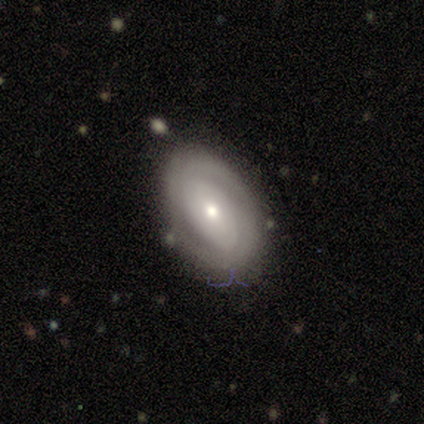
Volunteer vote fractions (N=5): A featured or disk galaxy (60%) with no bar (67%), 3 (50%, tied with can't tell) tight (50%, tied with loose) spiral arms (67%) and a small central bulge (67%). Merging: none (80%).